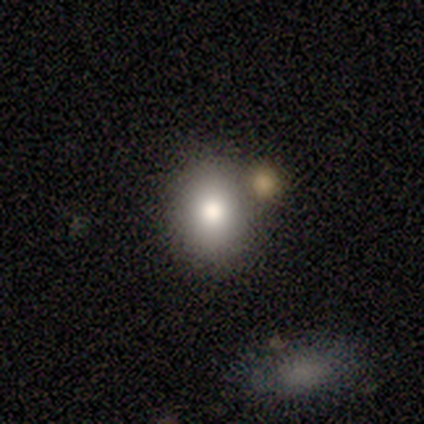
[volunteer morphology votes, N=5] Volunteers were most divided on "merging" (2-way tie): none: 40%, merger: 40%, minor disturbance: 20%, major disturbance: 0%. More confident: smooth or featured — smooth (100%); how rounded — in between (60%).